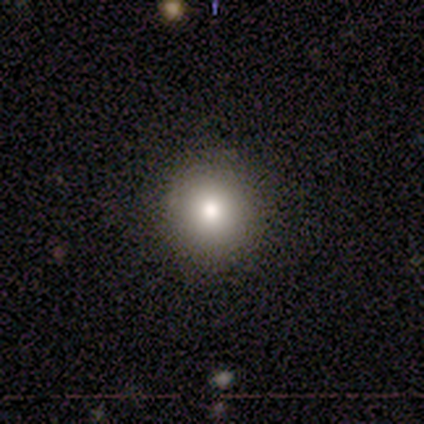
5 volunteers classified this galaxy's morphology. smooth_or_featured: smooth (p=0.80) [alt: featured or disk p=0.20]
how_rounded: round (p=1.00)
merging: none (p=0.80) [alt: minor disturbance p=0.20]